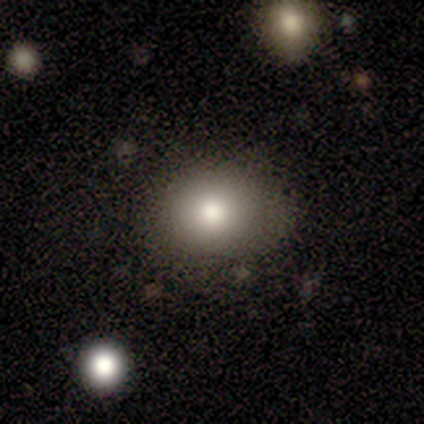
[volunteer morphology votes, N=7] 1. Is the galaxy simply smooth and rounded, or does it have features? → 100% smooth, 0% featured or disk, 0% star or artifact.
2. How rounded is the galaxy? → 57% round, 43% in between, 0% cigar-shaped.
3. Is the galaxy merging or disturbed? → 57% minor disturbance, 43% none, 0% major disturbance, 0% merger.